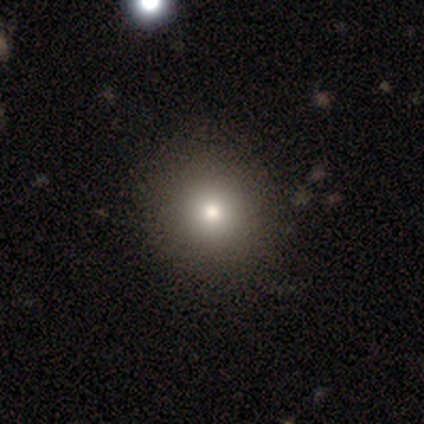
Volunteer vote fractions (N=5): Morphology: type=smooth (60%); roundness=round (100%); merging=none (100%).